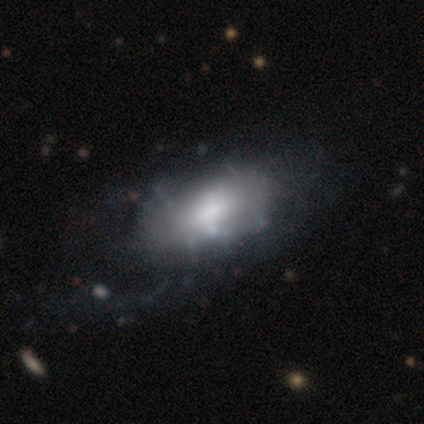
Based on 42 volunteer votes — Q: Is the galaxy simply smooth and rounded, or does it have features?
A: featured or disk — 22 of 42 (52%).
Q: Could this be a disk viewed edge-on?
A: no — 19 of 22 (86%).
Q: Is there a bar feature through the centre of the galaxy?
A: no — 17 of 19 (89%).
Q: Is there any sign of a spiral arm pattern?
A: no — 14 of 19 (74%).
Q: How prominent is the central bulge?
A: moderate — 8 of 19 (42%).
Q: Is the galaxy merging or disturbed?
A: none — 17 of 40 (42%).